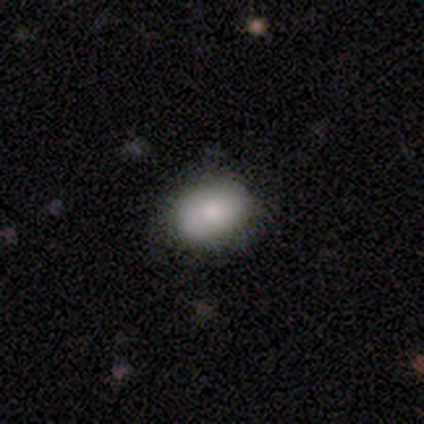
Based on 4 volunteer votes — Smooth or featured? smooth (50%, tied with featured or disk)
How rounded? round (50%, tied with in between)
Merging? none (100%)